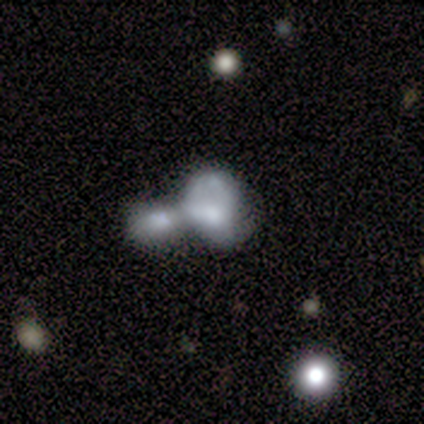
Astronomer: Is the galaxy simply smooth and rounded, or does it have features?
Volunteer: featured or disk — 60% (runner-up: smooth, 40%).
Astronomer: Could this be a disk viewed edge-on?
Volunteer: no — 100%.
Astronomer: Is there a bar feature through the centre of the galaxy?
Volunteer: no — 100%.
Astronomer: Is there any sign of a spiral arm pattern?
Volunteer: no — 67%.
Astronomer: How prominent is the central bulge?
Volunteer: large — 67%.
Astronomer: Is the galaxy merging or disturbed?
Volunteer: merger — 80%.